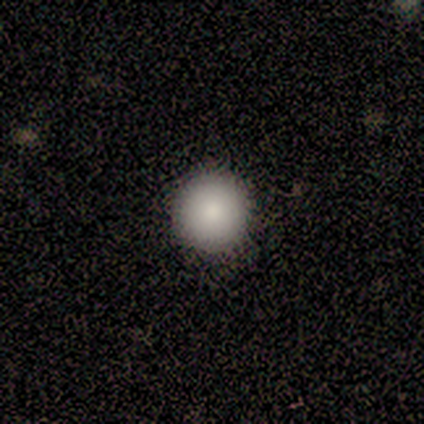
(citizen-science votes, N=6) Smooth or featured? 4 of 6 (67%) said smooth. How rounded? 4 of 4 (100%) said round. Merging? 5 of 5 (100%) said none.